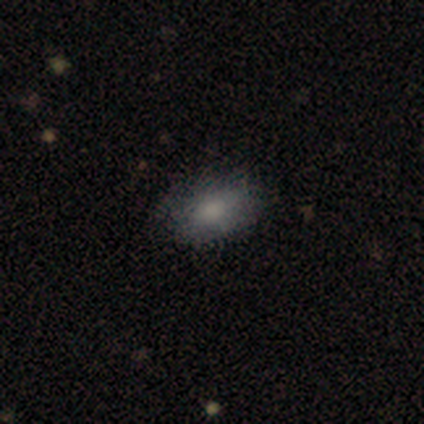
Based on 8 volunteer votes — Smooth or featured?
  - smooth: 88% *
  - featured or disk: 12%
  - star or artifact: 0%
How rounded?
  - in between: 100% *
  - round: 0%
  - cigar-shaped: 0%
Merging?
  - none: 75% *
  - minor disturbance: 25%
  - major disturbance: 0%
  - merger: 0%